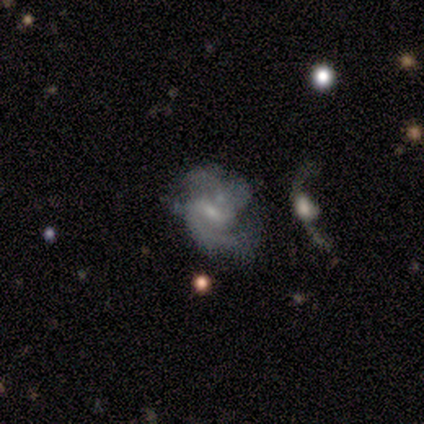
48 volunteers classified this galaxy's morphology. smooth-or-featured: featured or disk: 75% | smooth: 17% | star or artifact: 8%
  disk-edge-on: no: 100% | yes: 0%
    bar: weak: 64% | no: 22% | strong: 14%
    has-spiral-arms: yes: 89% | no: 11%
      spiral-winding: medium: 62% | loose: 22% | tight: 16%
      spiral-arm-count: 2: 81% | can't tell: 16% | more than 4: 3% | 1: 0% | 3: 0% | 4: 0%
    bulge-size: small: 56% | moderate: 22% | none: 19% | dominant: 3% | large: 0%
  merging: none: 36% | minor disturbance: 32% | major disturbance: 20% | merger: 11%